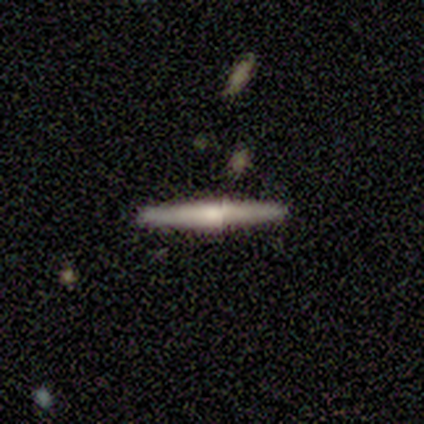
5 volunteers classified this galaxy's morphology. Smooth or featured? featured or disk (80%)
Edge-on disk? yes (100%)
Edge-on bulge? rounded (100%)
Merging? none (100%)